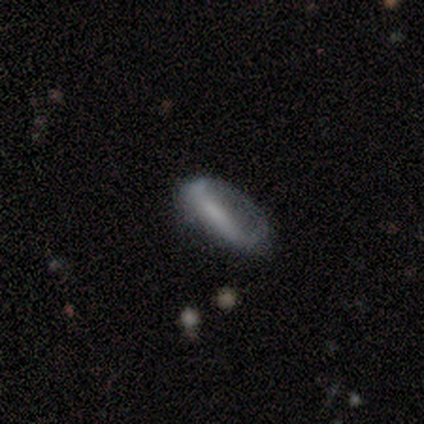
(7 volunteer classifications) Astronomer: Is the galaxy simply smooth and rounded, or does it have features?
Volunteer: featured or disk — 57% (runner-up: smooth, 43%).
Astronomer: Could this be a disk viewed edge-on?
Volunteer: no — 100%.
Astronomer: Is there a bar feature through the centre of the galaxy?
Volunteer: weak — 75%.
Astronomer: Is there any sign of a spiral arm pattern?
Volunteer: no — 75%.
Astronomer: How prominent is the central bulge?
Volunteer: none — 50%.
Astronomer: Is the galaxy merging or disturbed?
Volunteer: none — 43% (runner-up: minor disturbance, 29%).